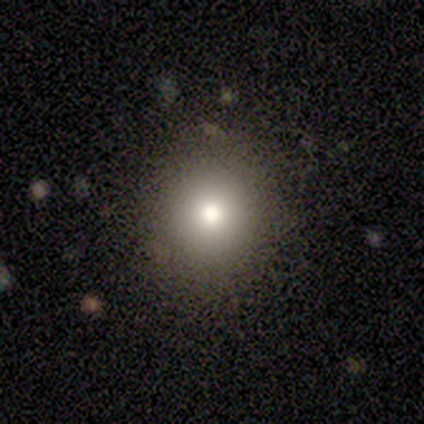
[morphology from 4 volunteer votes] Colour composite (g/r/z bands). It shows a smooth galaxy with no disk features (75%) that is round (100%). Merging: none (100%).